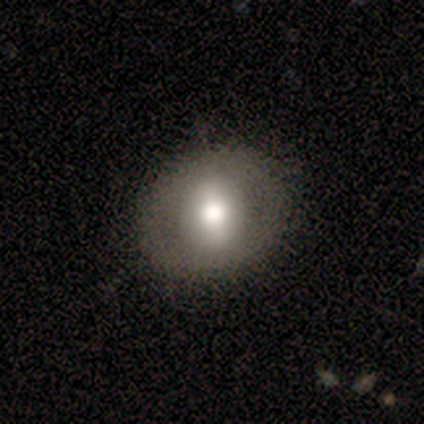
This is likely a smooth galaxy (62%). How rounded: clearly round (88%). Merging: clearly none (92%).